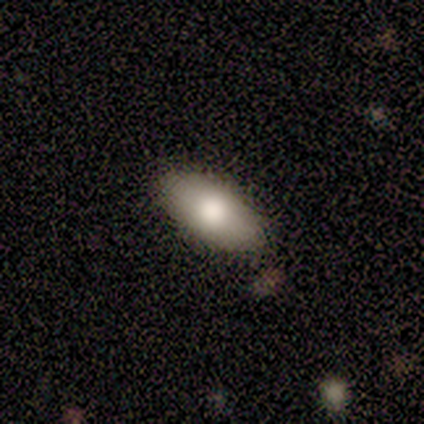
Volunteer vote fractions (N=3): Volunteers were most divided on "smooth or featured": featured or disk: 67%, smooth: 33%, star or artifact: 0%. More confident: edge-on disk — no (100%); bar — no (100%); spiral arms — no (100%); bulge size — large (100%); merging — none (100%).